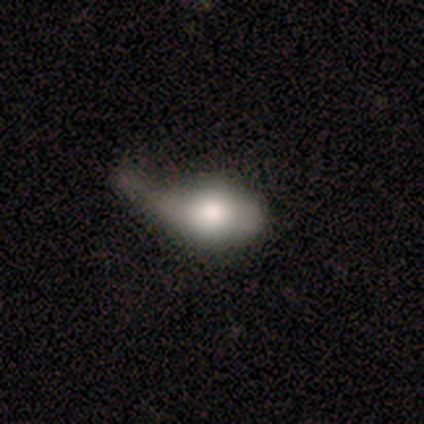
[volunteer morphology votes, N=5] Q: Smooth or featured?
A: smooth (60%); runner-up: featured or disk (40%)
Q: How rounded?
A: in between (100%)
Q: Merging?
A: major disturbance (60%); runner-up: minor disturbance (40%)